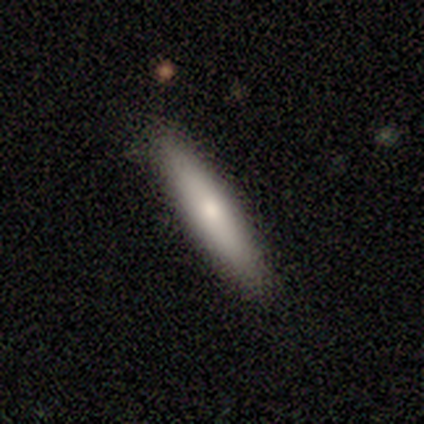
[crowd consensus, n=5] Overall: smooth (60%; featured or disk 40%). How rounded: cigar-shaped (67%; in between 33%). Merging: none (80%).